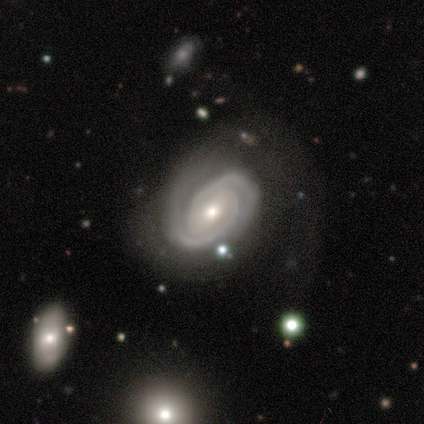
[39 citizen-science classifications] Overall: featured or disk (95%). Edge-on disk: no (97%). Bar: weak (47%; no 33%). Spiral arms: yes (100%). Spiral arm count: 2 (83%). Spiral winding: tight (64%; medium 28%). Bulge size: small (61%; moderate 31%). Merging: none (46%; minor disturbance 26%).